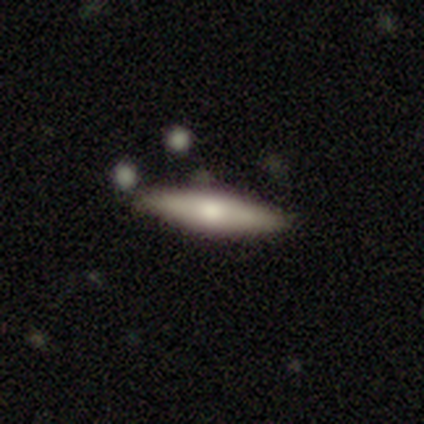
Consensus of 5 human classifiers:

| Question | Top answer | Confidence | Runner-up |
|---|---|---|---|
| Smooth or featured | smooth | 100% | — |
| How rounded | cigar-shaped | 80% | in between (20%) |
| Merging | none | 100% | — |